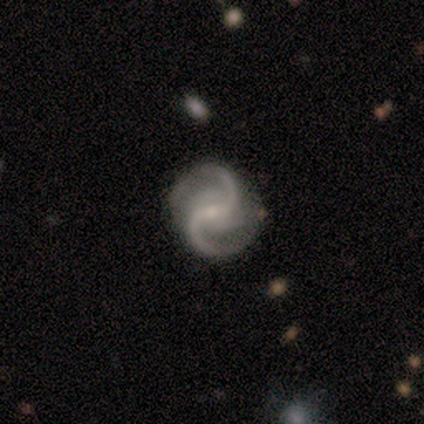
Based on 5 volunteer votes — Volunteers were most divided on "spiral arm count" (2-way tie): 2: 50%, 4: 50%, 1: 0%, 3: 0%, more than 4: 0%, can't tell: 0%. More confident: edge-on disk — no (100%); spiral arms — yes (100%); spiral winding — medium (100%); merging — none (100%); smooth or featured — featured or disk (80%); bulge size — small (75%); bar — no (50%).